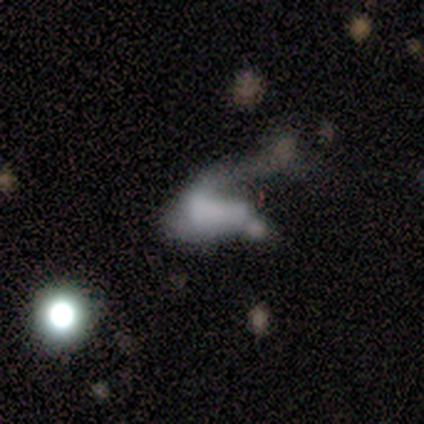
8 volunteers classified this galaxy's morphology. This is marginally a smooth galaxy (38%, tied with star or artifact). How rounded: likely in between (67%). Merging: likely major disturbance (60%).